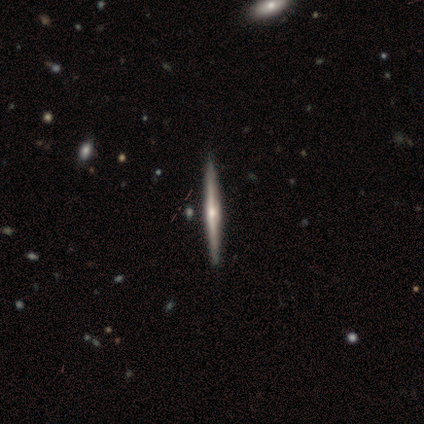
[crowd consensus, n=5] A featured or disk galaxy (100%) viewed edge-on (100%) with a rounded central bulge (100%). Merging: none (60%).